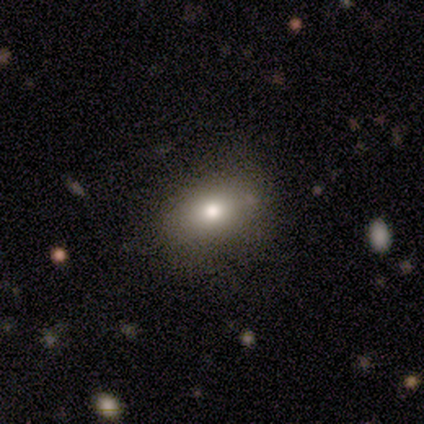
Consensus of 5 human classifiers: Overall: smooth (80%). How rounded: in between (100%). Merging: none (60%; minor disturbance 20%).